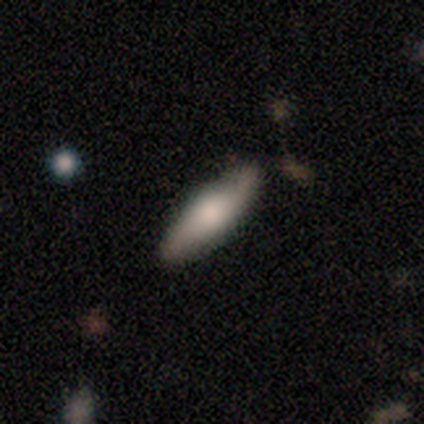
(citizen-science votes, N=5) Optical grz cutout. It shows a smooth galaxy with no disk features (80%) that is in between round and cigar-shaped (50%, tied with cigar-shaped). Merging: none (100%).